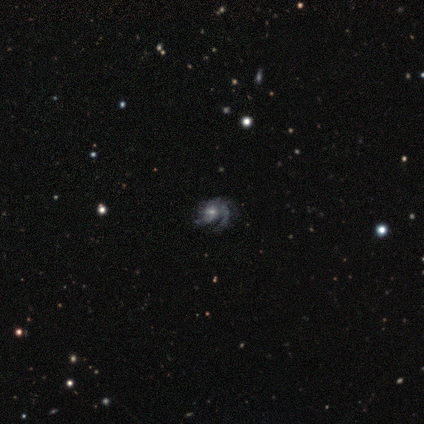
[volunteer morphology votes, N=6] This appears to be a featured or disk galaxy (100%) with no bar (83%), 1 (50%) medium (67%) spiral arms (100%) and a small central bulge (50%). Merging: none (83%).